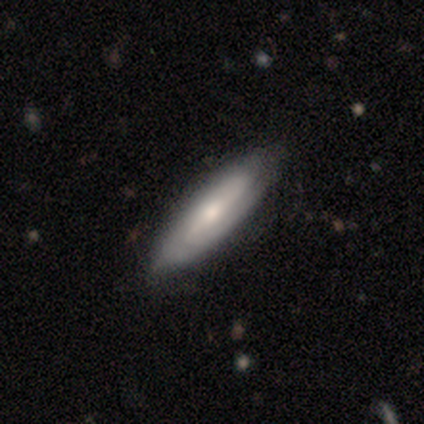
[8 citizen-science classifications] Overall: smooth (62%; featured or disk 38%). How rounded: cigar-shaped (100%). Merging: none (62%; minor disturbance 38%).